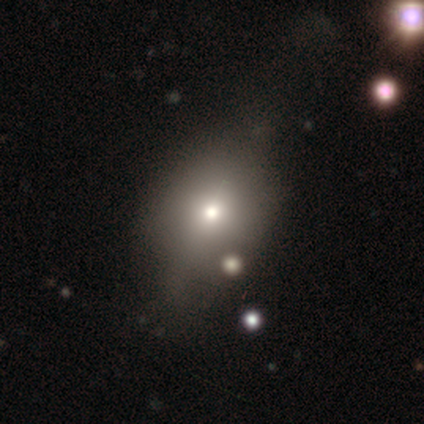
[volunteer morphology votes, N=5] smooth-or-featured: smooth: 40% (tied) | star or artifact: 40% (tied) | featured or disk: 20%
  how-rounded: in between: 100% | round: 0% | cigar-shaped: 0%
  merging: minor disturbance: 100% | none: 0% | major disturbance: 0% | merger: 0%